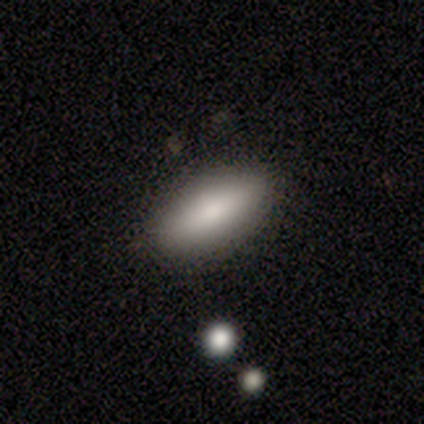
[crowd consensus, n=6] Smooth or featured: smooth — 83% (star or artifact — 17%)
How rounded: in between — 100%
Merging: none — 100%